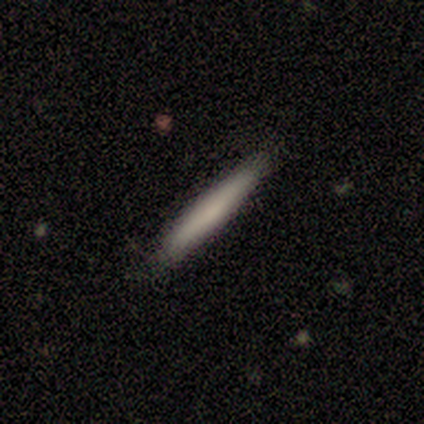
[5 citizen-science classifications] Q: Smooth or featured?
A: smooth (60%); runner-up: featured or disk (40%)
Q: How rounded?
A: cigar-shaped (100%)
Q: Merging?
A: none (80%); runner-up: minor disturbance (20%)